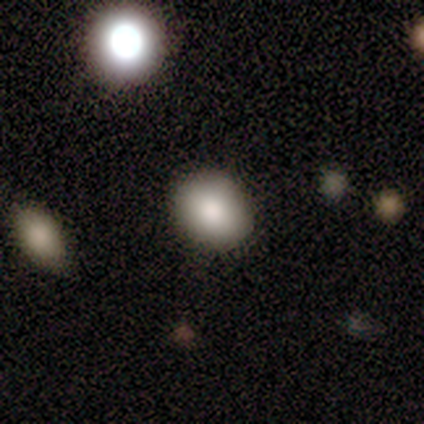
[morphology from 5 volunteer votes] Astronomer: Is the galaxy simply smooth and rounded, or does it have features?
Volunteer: featured or disk — 60% (runner-up: smooth, 40%).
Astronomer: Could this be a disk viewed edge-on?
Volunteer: no — 100%.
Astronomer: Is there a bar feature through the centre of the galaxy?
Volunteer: no — 67%.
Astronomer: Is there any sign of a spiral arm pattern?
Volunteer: no — 100%.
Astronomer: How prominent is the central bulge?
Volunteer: large — 33%, tied with moderate and small at 33%.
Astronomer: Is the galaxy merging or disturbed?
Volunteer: none — 80%.